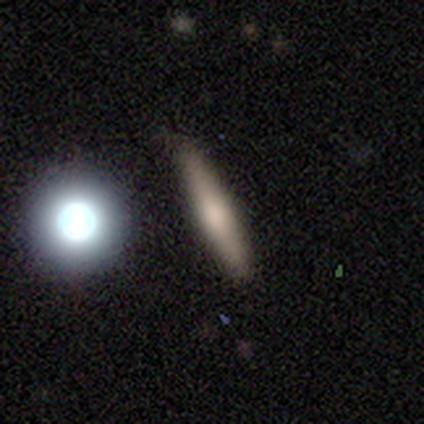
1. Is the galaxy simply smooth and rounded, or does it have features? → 80% smooth, 20% featured or disk, 0% star or artifact.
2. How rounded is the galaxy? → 75% cigar-shaped, 25% in between, 0% round.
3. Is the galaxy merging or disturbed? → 80% none, 20% minor disturbance, 0% major disturbance, 0% merger.